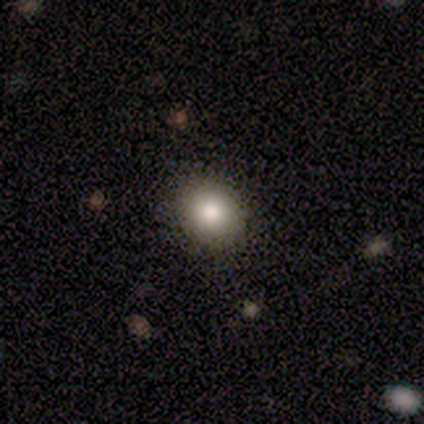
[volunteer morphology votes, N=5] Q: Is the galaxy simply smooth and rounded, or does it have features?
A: smooth — 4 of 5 (80%).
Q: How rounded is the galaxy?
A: round — 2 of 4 (50%, tied with in between).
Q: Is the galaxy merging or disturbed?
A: none — 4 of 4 (100%).